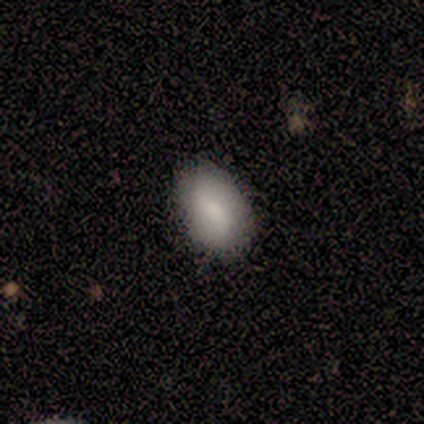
Smooth or featured? 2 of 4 (50%, tied with featured or disk) said smooth. How rounded? 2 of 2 (100%) said in between. Merging? 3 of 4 (75%) said none.